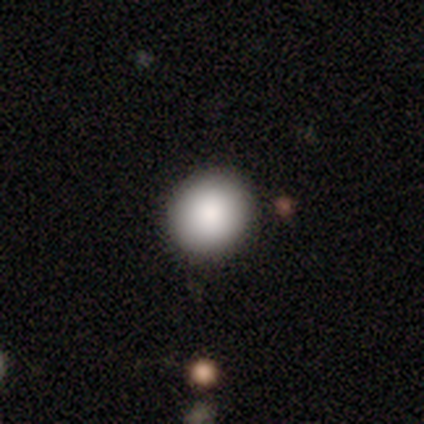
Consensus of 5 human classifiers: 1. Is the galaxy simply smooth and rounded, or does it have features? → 80% smooth, 20% star or artifact, 0% featured or disk.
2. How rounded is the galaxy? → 75% round, 25% in between, 0% cigar-shaped.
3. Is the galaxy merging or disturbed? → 100% none, 0% minor disturbance, 0% major disturbance, 0% merger.